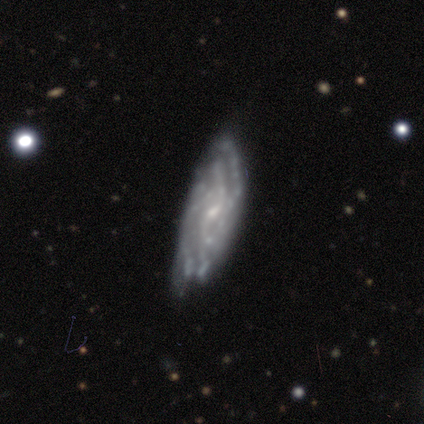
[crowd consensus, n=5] A featured or disk galaxy (80%) with no bar (50%), tight (67%) spiral arms (75%) and a small central bulge (75%). Merging: none (75%).